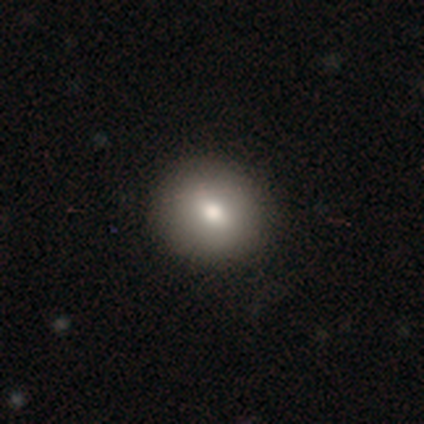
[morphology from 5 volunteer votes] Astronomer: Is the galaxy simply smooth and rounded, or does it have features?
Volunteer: smooth — 100%.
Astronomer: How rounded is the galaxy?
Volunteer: round — 80%.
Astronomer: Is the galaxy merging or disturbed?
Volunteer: none — 100%.